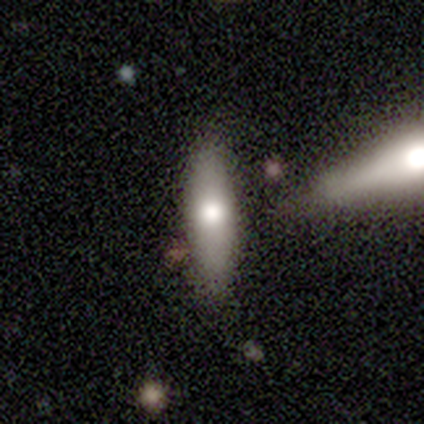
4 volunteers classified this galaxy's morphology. smooth-or-featured: smooth: 75% | featured or disk: 25% | star or artifact: 0%
  how-rounded: cigar-shaped: 67% | in between: 33% | round: 0%
  merging: none: 50% | minor disturbance: 25% | merger: 25% | major disturbance: 0%